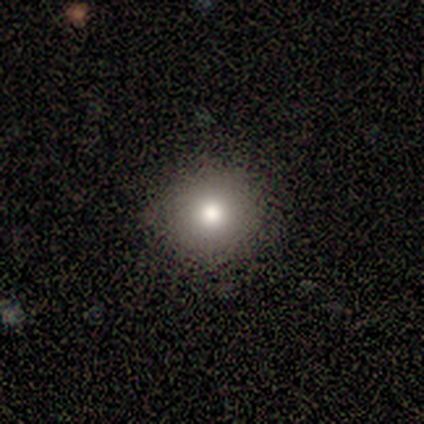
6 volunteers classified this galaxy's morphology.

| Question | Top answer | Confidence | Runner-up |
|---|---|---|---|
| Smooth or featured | smooth | 83% | featured or disk (17%) |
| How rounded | round | 100% | — |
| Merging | none | 83% | minor disturbance (17%) |